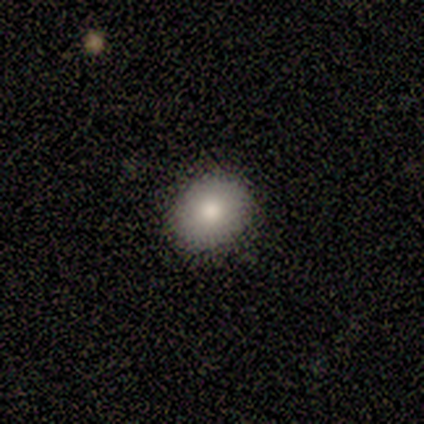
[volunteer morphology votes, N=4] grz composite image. It shows a smooth galaxy with no disk features (100%) that is round (50%, tied with in between). Merging: none (100%).